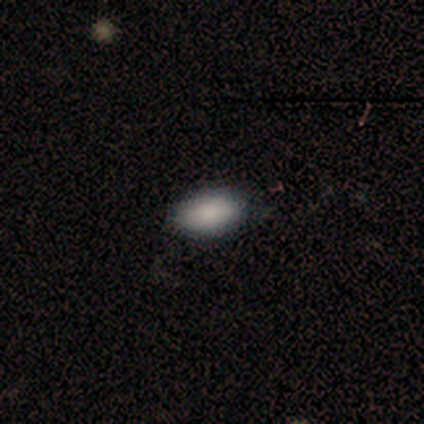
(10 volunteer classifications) Q: Smooth or featured?
A: smooth (100%)
Q: How rounded?
A: in between (100%)
Q: Merging?
A: none (100%)